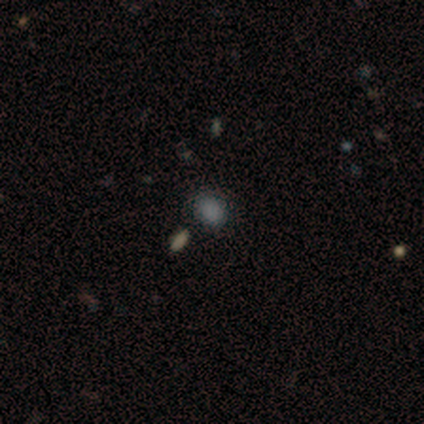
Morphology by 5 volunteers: This appears to be a smooth galaxy with no disk features (100%) that is in between round and cigar-shaped (80%). Merging: none (60%).